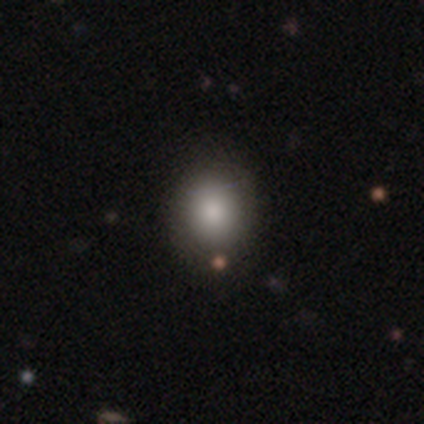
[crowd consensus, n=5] Overall: smooth (60%; featured or disk 20%). How rounded: round (100%). Merging: none (100%).